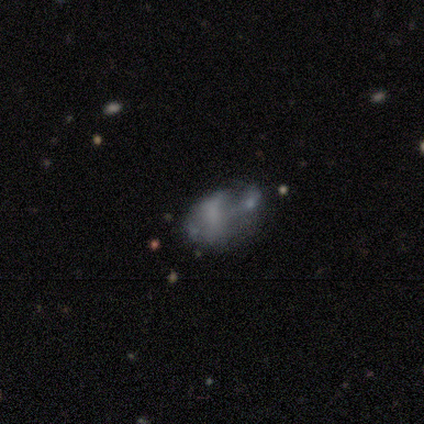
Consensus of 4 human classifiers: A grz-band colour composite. It shows a smooth galaxy with no disk features (50%, tied with featured or disk) that is in between round and cigar-shaped (100%). Merging: merger (50%).